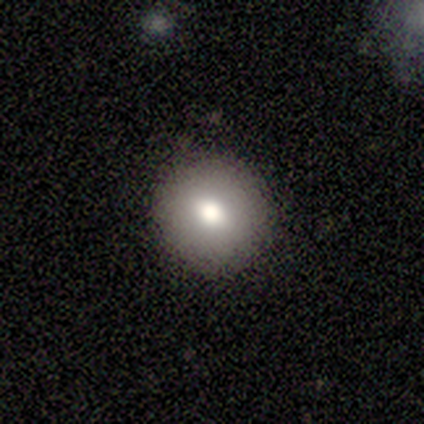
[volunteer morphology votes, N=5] Smooth or featured? 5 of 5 (100%) said smooth. How rounded? 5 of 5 (100%) said round. Merging? 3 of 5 (60%) said none.